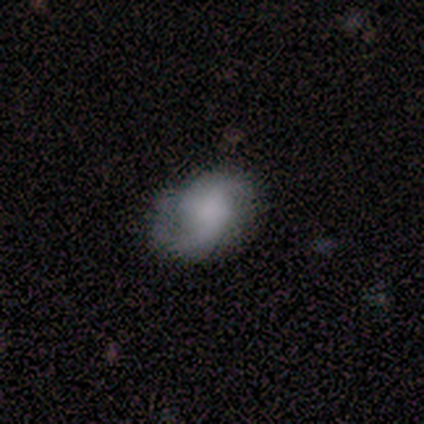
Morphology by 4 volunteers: Smooth or featured? 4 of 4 (100%) said featured or disk. Edge-on disk? 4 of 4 (100%) said no. Bar? 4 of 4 (100%) said no. Spiral arms? 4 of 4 (100%) said yes. Spiral winding? 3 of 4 (75%) said loose. Spiral arm count? 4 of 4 (100%) said 2. Bulge size? 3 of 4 (75%) said none. Merging? 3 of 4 (75%) said none.